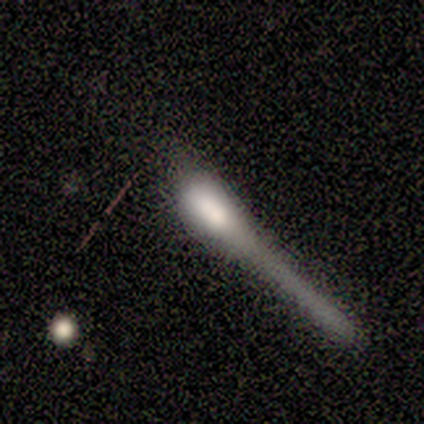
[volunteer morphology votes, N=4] Smooth or featured? 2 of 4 (50%, tied with featured or disk) said smooth. How rounded? 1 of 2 (50%, tied with cigar-shaped) said in between. Merging? 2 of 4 (50%) said major disturbance.